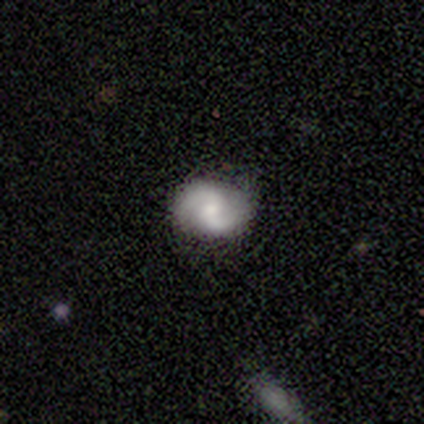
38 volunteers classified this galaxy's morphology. This is likely a featured or disk galaxy (66%). It is clearly not viewed edge-on (96%). Bar: possibly weak (58%). Spiral arm pattern: clearly yes (92%). Spiral arm count: clearly 2 (86%). Spiral winding: possibly medium (45%). Central bulge: possibly small (46%). Merging: likely none (79%).